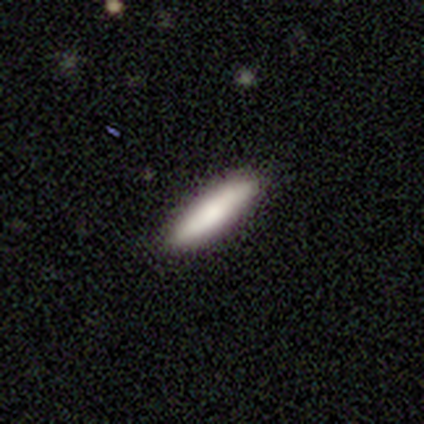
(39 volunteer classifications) Smooth or featured? smooth (79%)
How rounded? cigar-shaped (71%)
Merging? none (84%)